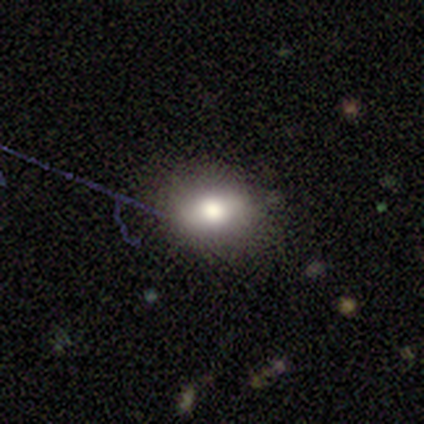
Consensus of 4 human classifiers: smooth-or-featured: smooth: 50% | featured or disk: 25% | star or artifact: 25%
  how-rounded: round: 50% (tied) | in between: 50% (tied) | cigar-shaped: 0%
  merging: none: 67% | merger: 33% | minor disturbance: 0% | major disturbance: 0%